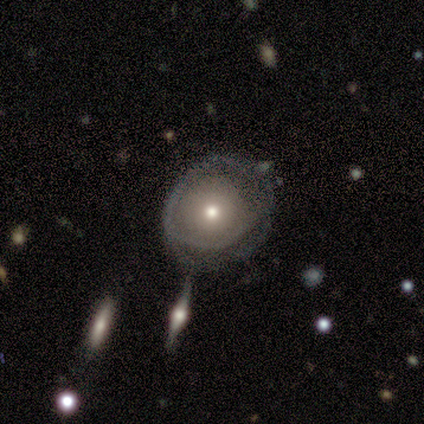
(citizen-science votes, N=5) A smooth galaxy with no disk features (40%, tied with featured or disk) that is round (100%).

Vote fractions:
- Smooth or featured? smooth: 40% (tied) / featured or disk: 40% (tied) / star or artifact: 20%
- How rounded? round: 100% / in between: 0% / cigar-shaped: 0%
- Merging? none: 75% / merger: 25% / minor disturbance: 0% / major disturbance: 0%